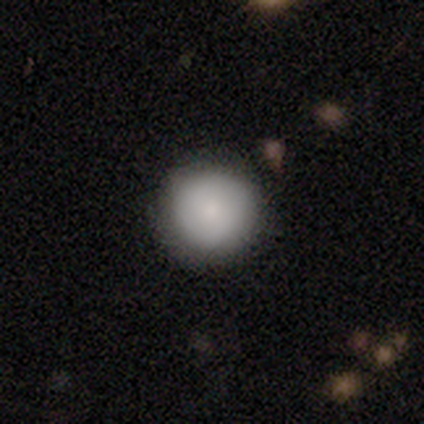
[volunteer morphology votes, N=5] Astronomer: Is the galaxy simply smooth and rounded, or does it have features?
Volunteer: smooth — 100%.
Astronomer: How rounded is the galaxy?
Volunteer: round — 100%.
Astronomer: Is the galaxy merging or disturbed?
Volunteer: none — 80%.